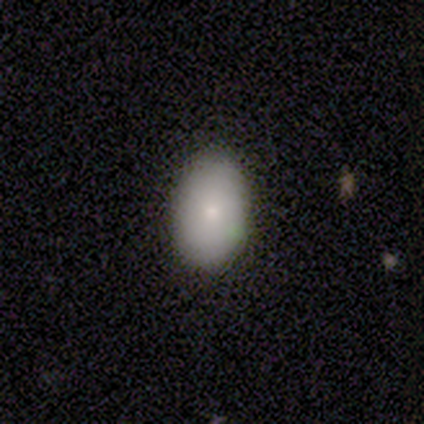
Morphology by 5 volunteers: A smooth galaxy with no disk features (80%) that is in between round and cigar-shaped (100%).

Vote fractions:
- Smooth or featured? smooth: 80% / featured or disk: 20% / star or artifact: 0%
- How rounded? in between: 100% / round: 0% / cigar-shaped: 0%
- Merging? none: 100% / minor disturbance: 0% / major disturbance: 0% / merger: 0%